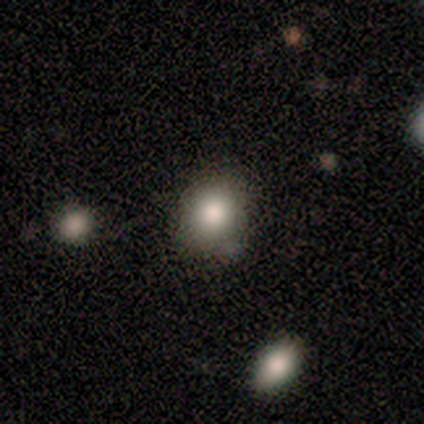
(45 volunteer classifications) Volunteers were most divided on "smooth or featured": smooth: 76%, star or artifact: 16%, featured or disk: 9%. More confident: how rounded — round (82%); merging — none (76%).